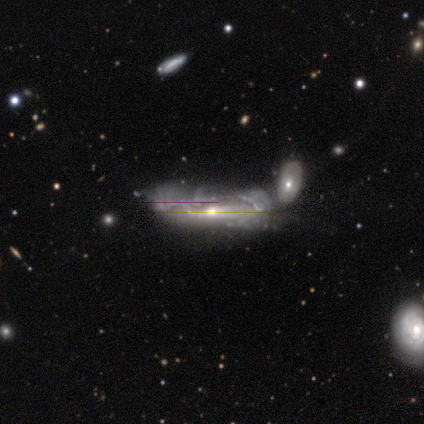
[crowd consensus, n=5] smooth_or_featured: featured or disk (p=0.80) [alt: star or artifact p=0.20]
disk_edge_on: yes (p=0.75) [alt: no p=0.25]
edge_on_bulge: rounded (p=1.00)
merging: minor disturbance (p=0.50) [tied with: merger p=0.50]